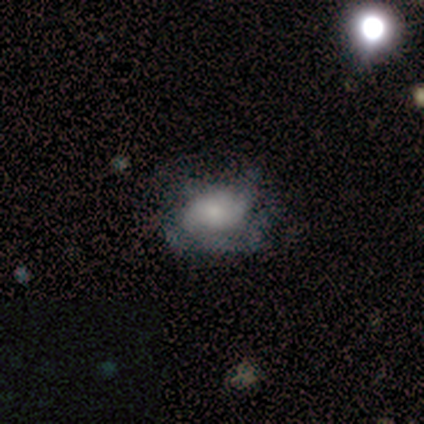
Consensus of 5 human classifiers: smooth_or_featured: smooth (p=0.40) [tied with: featured or disk p=0.40]
how_rounded: in between (p=1.00)
merging: none (p=0.50) [alt: minor disturbance p=0.25]